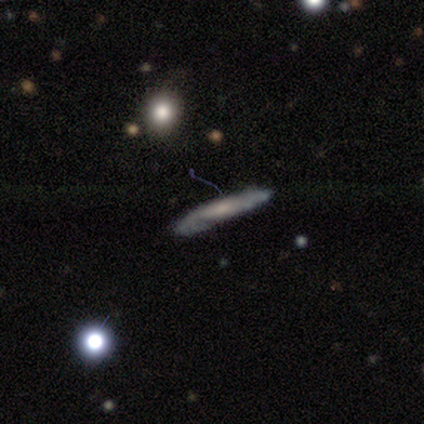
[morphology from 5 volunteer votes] A featured or disk galaxy (60%) viewed edge-on (67%) with no central bulge (100%).

Vote fractions:
- Smooth or featured? featured or disk: 60% / smooth: 40% / star or artifact: 0%
- Edge-on disk? yes: 67% / no: 33%
- Edge-on bulge? none: 100% / boxy: 0% / rounded: 0%
- Merging? none: 40% (tied) / major disturbance: 40% (tied) / minor disturbance: 20% / merger: 0%